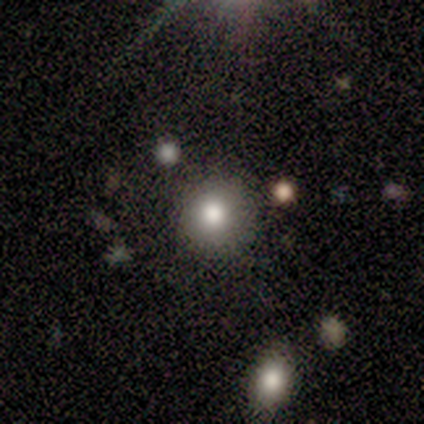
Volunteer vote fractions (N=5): Smooth or featured? smooth (40%, tied with featured or disk)
How rounded? round (100%)
Merging? none (75%)